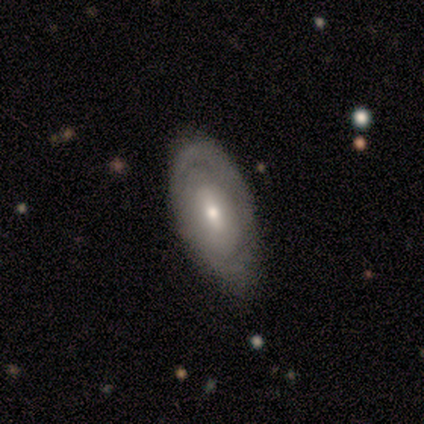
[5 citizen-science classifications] smooth 60%, featured or disk 40%, star or artifact 0%. Down the decision tree: how rounded — in between (100%); merging — none (60%).